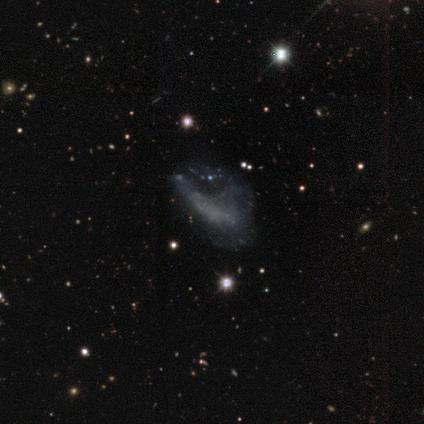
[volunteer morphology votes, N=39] A featured or disk galaxy (79%) with no bar (97%), no spiral arms (94%) and no central bulge (97%). Merging: major disturbance (35%).